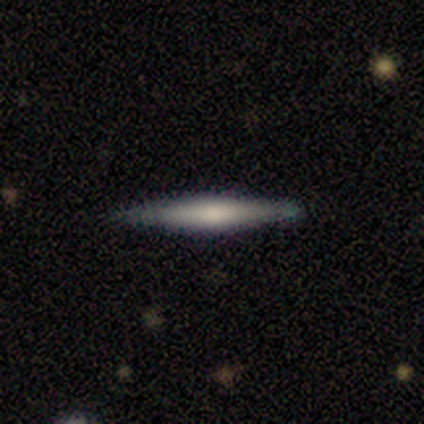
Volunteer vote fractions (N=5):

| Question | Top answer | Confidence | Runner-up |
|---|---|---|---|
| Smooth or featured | smooth | 60% | featured or disk (40%) |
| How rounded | cigar-shaped | 100% | — |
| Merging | none | 80% | minor disturbance (20%) |